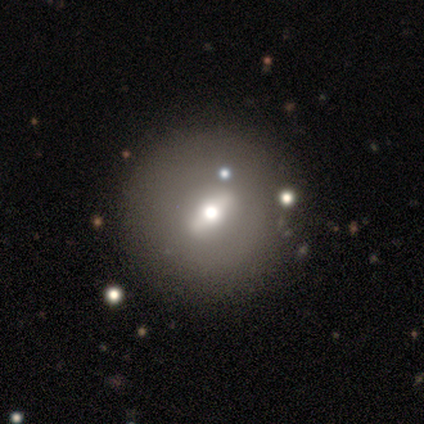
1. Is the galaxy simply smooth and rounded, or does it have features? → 54% featured or disk, 36% smooth, 10% star or artifact.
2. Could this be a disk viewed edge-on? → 67% no, 33% yes.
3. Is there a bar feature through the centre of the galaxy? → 50% strong (tied), 50% weak (tied), 0% no.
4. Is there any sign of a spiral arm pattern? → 100% no, 0% yes.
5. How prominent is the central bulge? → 57% moderate, 29% small, 14% large, 0% dominant, 0% none.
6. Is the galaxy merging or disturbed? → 74% none, 11% major disturbance, 9% merger, 6% minor disturbance.